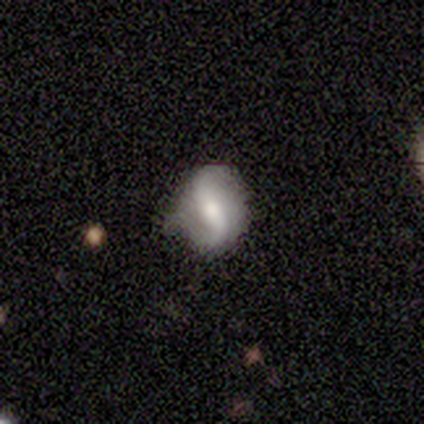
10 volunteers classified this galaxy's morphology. featured or disk 90%, star or artifact 10%, smooth 0%. Down the decision tree: edge-on disk — no (100%); bar — no (56%); spiral arms — yes (100%); spiral arm count — 2 (89%); spiral winding — loose (56%); bulge size — moderate (89%); merging — none (56%).